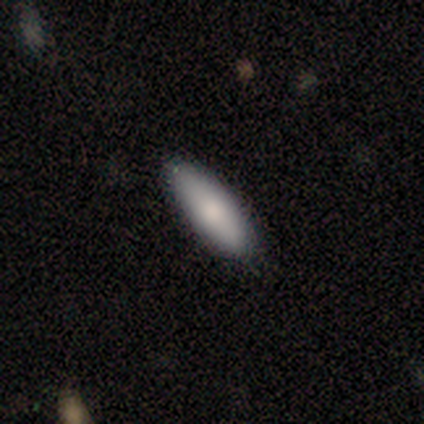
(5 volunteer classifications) Q: Smooth or featured?
A: smooth (60%); runner-up: featured or disk (40%)
Q: How rounded?
A: in between (67%); runner-up: cigar-shaped (33%)
Q: Merging?
A: none (100%)